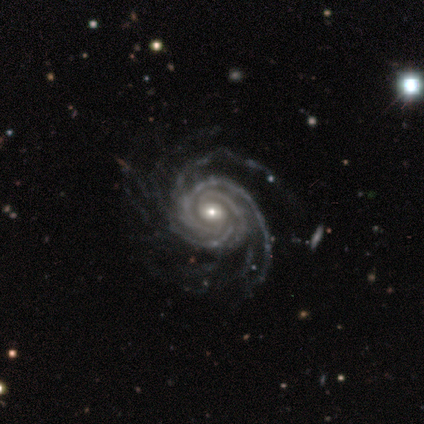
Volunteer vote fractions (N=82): smooth_or_featured: featured or disk (p=0.95) [alt: smooth p=0.02]
disk_edge_on: no (p=0.97) [alt: yes p=0.03]
bar: no (p=0.63) [alt: weak p=0.25]
has_spiral_arms: yes (p=1.00)
spiral_winding: tight (p=0.83) [alt: medium p=0.13]
spiral_arm_count: more than 4 (p=0.29) [alt: 4 p=0.24]
bulge_size: moderate (p=0.63) [alt: small p=0.32]
merging: none (p=0.79) [alt: minor disturbance p=0.12]